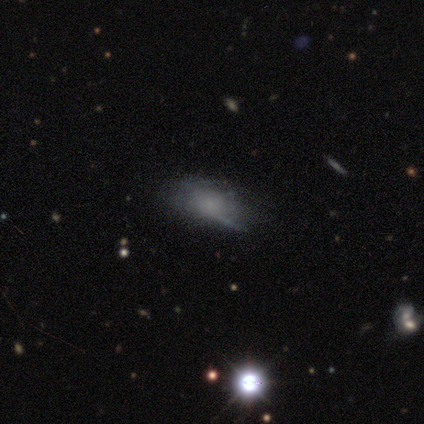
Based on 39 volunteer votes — Smooth or featured? smooth (56%)
How rounded? in between (77%)
Merging? none (50%)